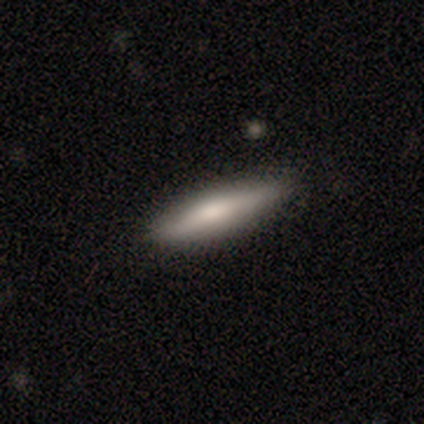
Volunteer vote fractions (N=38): Morphology: type=featured or disk (53%); edge-on=yes (80%); edge-on bulge=rounded (56%); merging=none (89%).